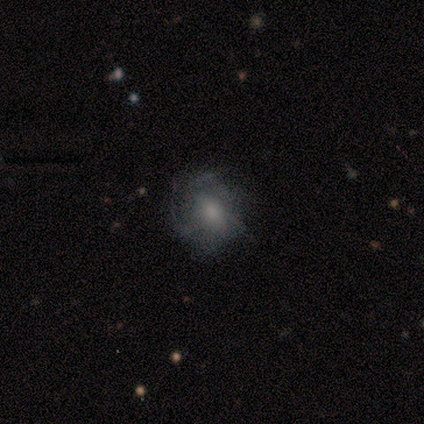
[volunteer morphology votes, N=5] Volunteers were most divided on "bar": no: 67%, weak: 33%, strong: 0%. More confident: spiral arms — yes (100%); bulge size — moderate (100%); smooth or featured — featured or disk (80%); edge-on disk — no (75%); spiral winding — medium (67%); spiral arm count — can't tell (67%); merging — none (60%).